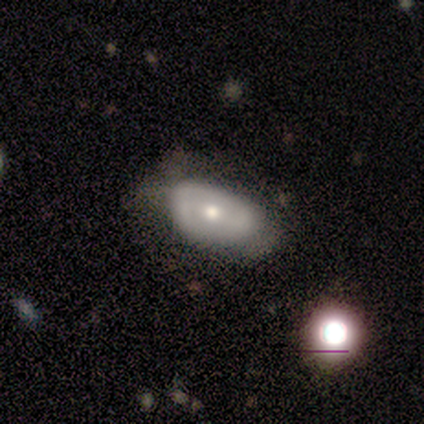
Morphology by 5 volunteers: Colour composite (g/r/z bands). It shows a featured or disk galaxy (60%) with a strong bar (50%, tied with no), 2 (100%) medium (100%) spiral arms (50%, tied with no) and a moderate central bulge (50%, tied with small). Merging: none (75%).